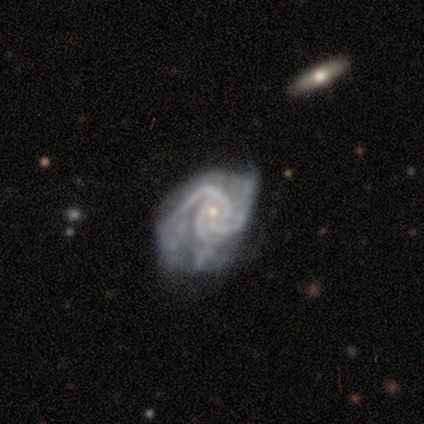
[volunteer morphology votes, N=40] featured or disk 95%, star or artifact 5%, smooth 0%. Down the decision tree: edge-on disk — no (100%); bar — no (92%); spiral arms — yes (97%); spiral arm count — 3 (76%); spiral winding — tight (62%); bulge size — small (68%); merging — major disturbance (42%).